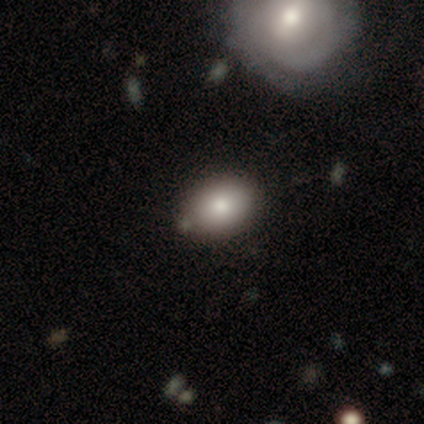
A smooth galaxy with no disk features (88%) that is in between round and cigar-shaped (64%).

Vote fractions:
- Smooth or featured? smooth: 88% / featured or disk: 6% / star or artifact: 6%
- How rounded? in between: 64% / round: 36% / cigar-shaped: 0%
- Merging? none: 93% / minor disturbance: 7% / major disturbance: 0% / merger: 0%